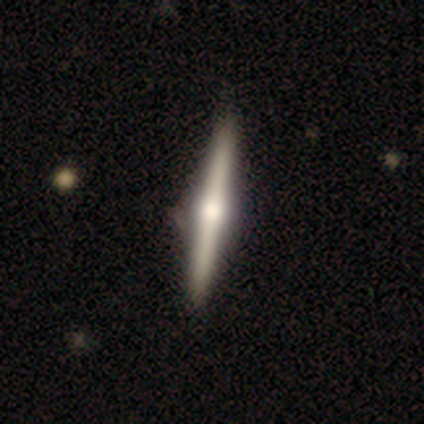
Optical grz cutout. It shows a featured or disk galaxy (100%) viewed edge-on (100%) with a rounded central bulge (80%). Merging: none (100%).